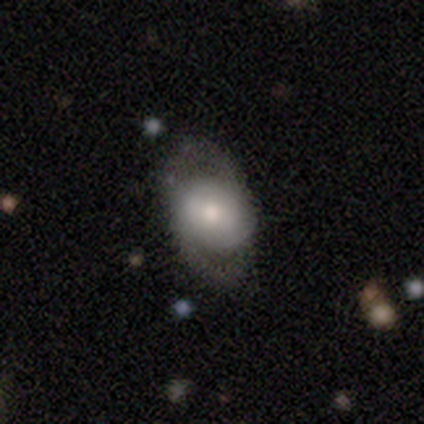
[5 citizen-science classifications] Smooth or featured? featured or disk (60%)
Edge-on disk? no (67%)
Bar? no (100%)
Spiral arms? yes (50%, tied with no)
Spiral winding? medium (100%)
Spiral arm count? 2 (100%)
Bulge size? moderate (50%, tied with small)
Merging? none (80%)